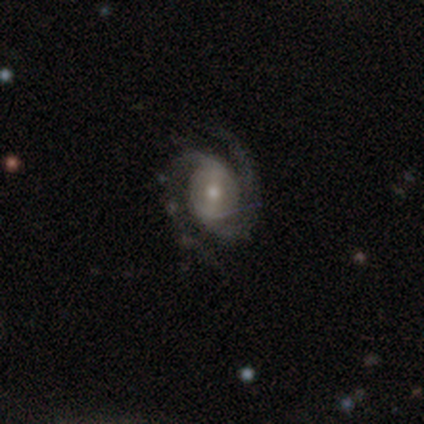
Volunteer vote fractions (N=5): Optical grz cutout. It shows a featured or disk galaxy (100%) with a weak bar (60%), 2 (100%) medium (60%) spiral arms (100%) and a moderate central bulge (80%). Merging: none (80%).